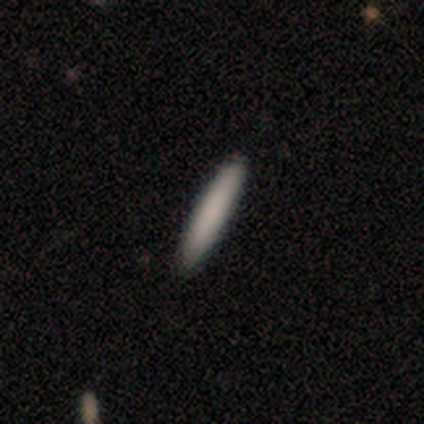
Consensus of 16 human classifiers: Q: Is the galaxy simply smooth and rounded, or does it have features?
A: smooth — 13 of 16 (81%).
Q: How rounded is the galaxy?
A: cigar-shaped — 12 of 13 (92%).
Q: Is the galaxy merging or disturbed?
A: none — 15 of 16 (94%).